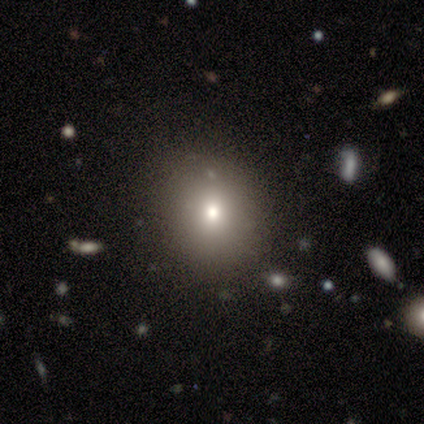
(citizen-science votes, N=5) smooth_or_featured: smooth (p=1.00)
how_rounded: round (p=1.00)
merging: none (p=1.00)